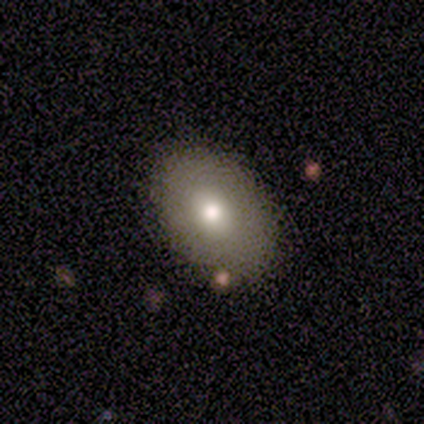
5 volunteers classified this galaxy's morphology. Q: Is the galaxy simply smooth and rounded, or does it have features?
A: featured or disk — 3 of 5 (60%).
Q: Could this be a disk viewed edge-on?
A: no — 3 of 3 (100%).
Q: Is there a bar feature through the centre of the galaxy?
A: no — 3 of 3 (100%).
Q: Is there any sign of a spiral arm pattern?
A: no — 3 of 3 (100%).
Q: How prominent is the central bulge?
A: moderate — 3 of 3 (100%).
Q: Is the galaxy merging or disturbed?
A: none — 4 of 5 (80%).